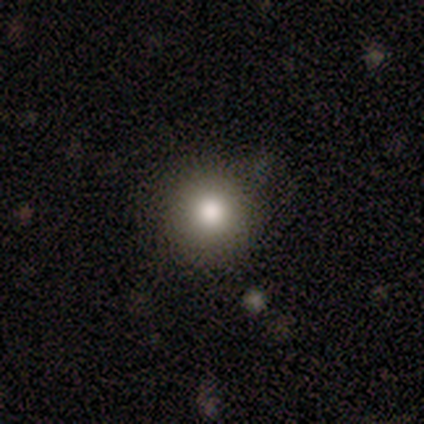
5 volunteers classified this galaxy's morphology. A smooth galaxy with no disk features (80%) that is round (100%).

Vote fractions:
- Smooth or featured? smooth: 80% / star or artifact: 20% / featured or disk: 0%
- How rounded? round: 100% / in between: 0% / cigar-shaped: 0%
- Merging? none: 100% / minor disturbance: 0% / major disturbance: 0% / merger: 0%